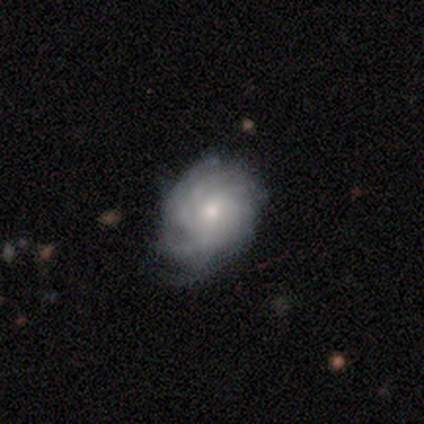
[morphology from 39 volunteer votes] type=featured or disk (77%); edge-on=no (97%); bar=no (72%); spiral arms=yes (97%); winding=tight (75%); arm count=can't tell (43%); bulge=small (55%); merging=none (71%).